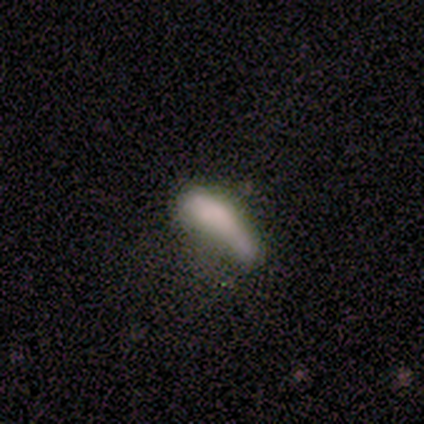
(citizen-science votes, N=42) Volunteers were most divided on "merging" (2-way tie): none: 33%, major disturbance: 33%, minor disturbance: 19%, merger: 14%. More confident: how rounded — in between (68%); smooth or featured — smooth (67%).